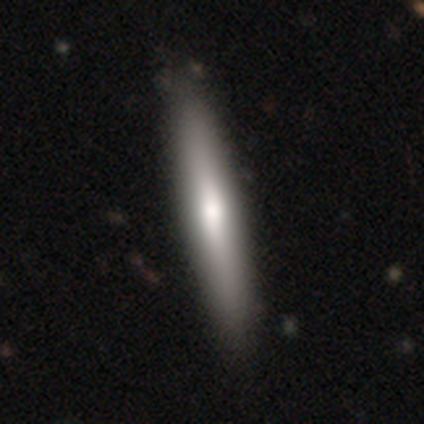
smooth 55%, featured or disk 40%, star or artifact 5%. Down the decision tree: how rounded — cigar-shaped (91%); merging — none (58%).